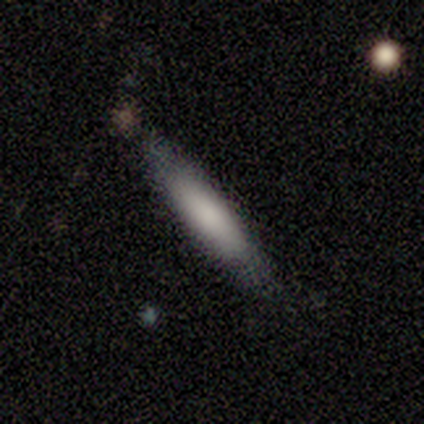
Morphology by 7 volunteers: Smooth or featured?
  - smooth: 100% *
  - featured or disk: 0%
  - star or artifact: 0%
How rounded?
  - cigar-shaped: 57% *
  - in between: 43%
  - round: 0%
Merging?
  - none: 71% *
  - minor disturbance: 29%
  - major disturbance: 0%
  - merger: 0%